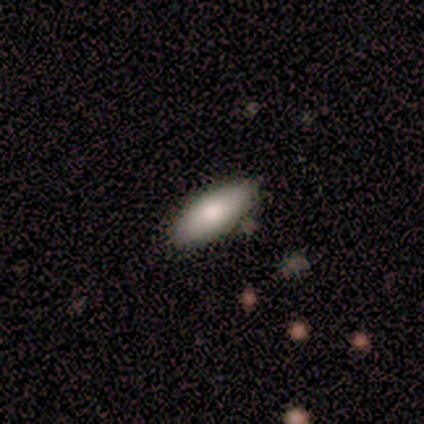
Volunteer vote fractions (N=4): A smooth galaxy with no disk features (50%, tied with featured or disk) that is in between round and cigar-shaped (100%).

Vote fractions:
- Smooth or featured? smooth: 50% (tied) / featured or disk: 50% (tied) / star or artifact: 0%
- How rounded? in between: 100% / round: 0% / cigar-shaped: 0%
- Merging? none: 50% / minor disturbance: 25% / merger: 25% / major disturbance: 0%